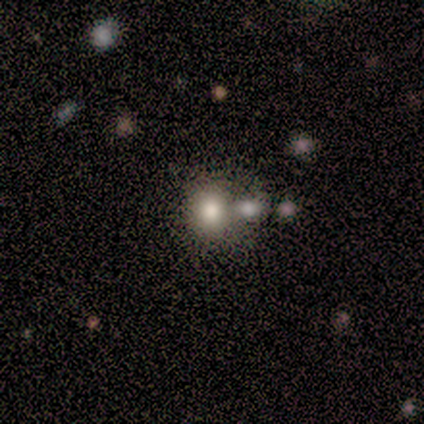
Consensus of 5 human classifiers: smooth-or-featured: smooth: 80% | featured or disk: 20% | star or artifact: 0%
  how-rounded: round: 75% | in between: 25% | cigar-shaped: 0%
  merging: none: 60% | merger: 40% | minor disturbance: 0% | major disturbance: 0%